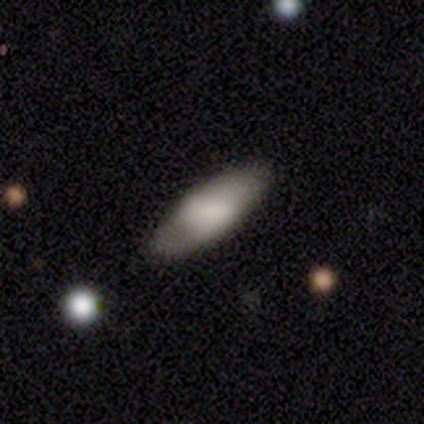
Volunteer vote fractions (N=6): Overall: smooth (83%). How rounded: in between (80%). Merging: none (67%; minor disturbance 33%).